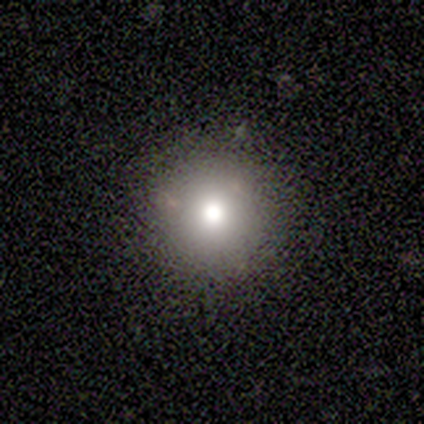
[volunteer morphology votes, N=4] A smooth galaxy with no disk features (75%) that is round (100%). Merging: none (100%).